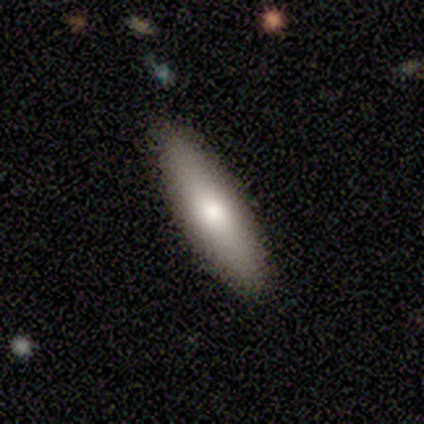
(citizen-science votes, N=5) A smooth galaxy with no disk features (100%) that is cigar-shaped (60%). Merging: none (100%).